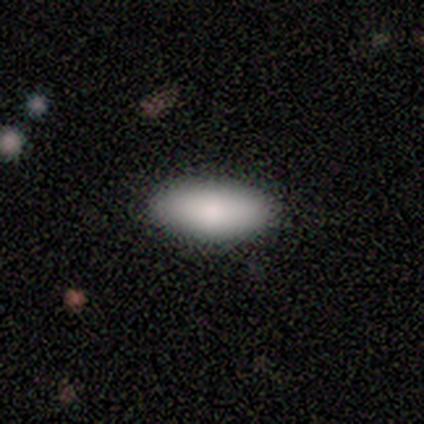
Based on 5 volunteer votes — smooth 100%, featured or disk 0%, star or artifact 0%. Down the decision tree: how rounded — in between (100%); merging — none (100%).